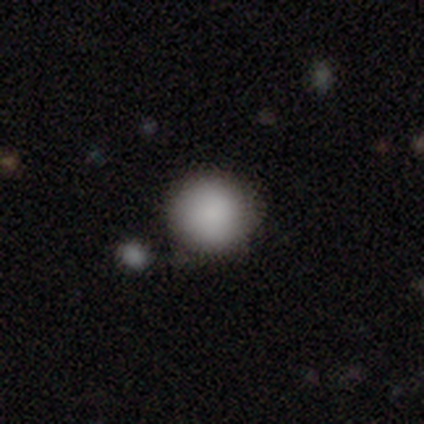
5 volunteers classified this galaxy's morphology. Smooth or featured? smooth (100%)
How rounded? round (100%)
Merging? none (80%)